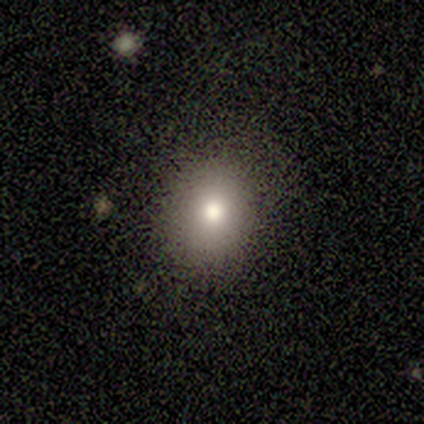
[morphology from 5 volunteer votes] Q: Smooth or featured?
A: smooth (80%); runner-up: featured or disk (20%)
Q: How rounded?
A: round (75%); runner-up: in between (25%)
Q: Merging?
A: none (100%)